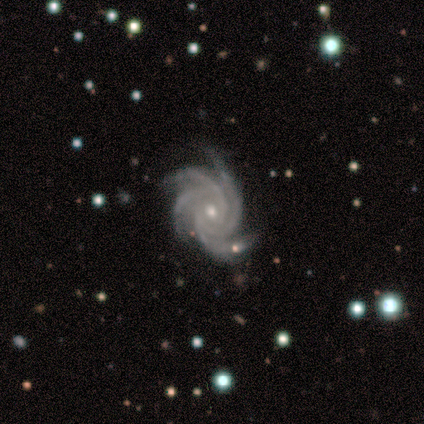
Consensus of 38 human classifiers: Smooth or featured? 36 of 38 (95%) said featured or disk. Edge-on disk? 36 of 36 (100%) said no. Bar? 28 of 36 (78%) said no. Spiral arms? 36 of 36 (100%) said yes. Spiral winding? 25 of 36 (69%) said tight. Spiral arm count? 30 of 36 (83%) said 4. Bulge size? 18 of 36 (50%) said moderate. Merging? 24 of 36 (67%) said none.